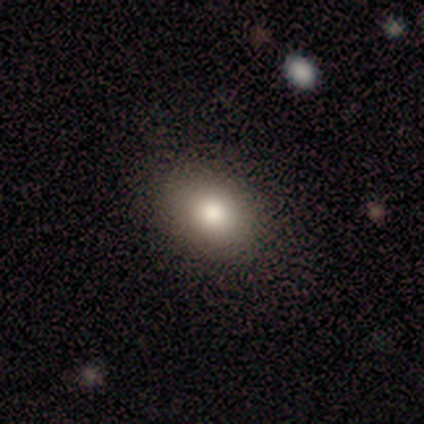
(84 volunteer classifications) Smooth or featured? 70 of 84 (83%) said smooth. How rounded? 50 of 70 (71%) said in between. Merging? 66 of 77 (86%) said none.